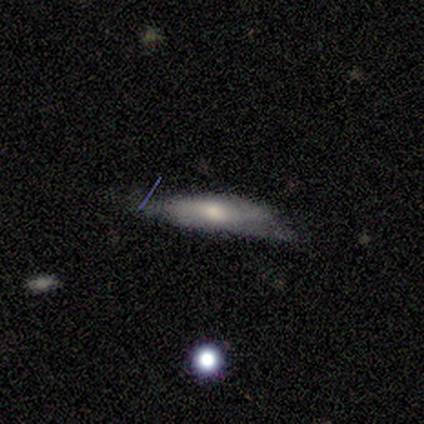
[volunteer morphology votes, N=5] type=smooth (60%); roundness=cigar-shaped (100%); merging=none (50%).